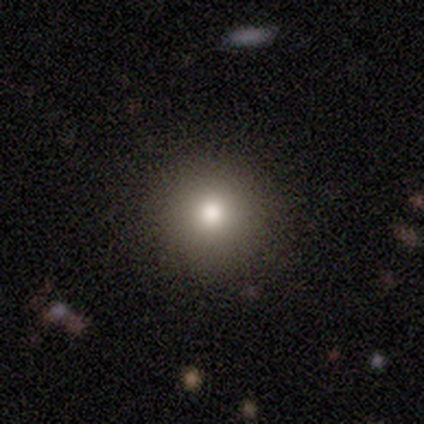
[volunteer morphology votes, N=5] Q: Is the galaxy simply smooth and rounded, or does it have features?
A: smooth — 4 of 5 (80%).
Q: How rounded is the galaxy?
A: round — 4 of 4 (100%).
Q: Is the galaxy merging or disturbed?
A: none — 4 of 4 (100%).